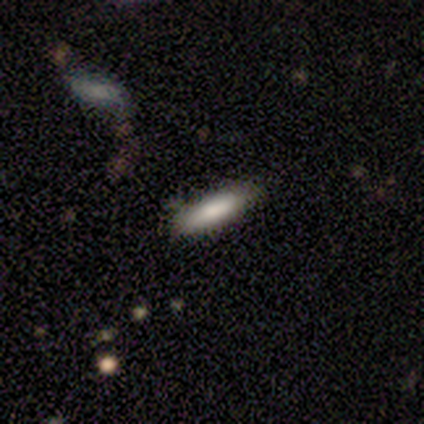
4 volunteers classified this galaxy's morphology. smooth-or-featured: smooth: 75% | featured or disk: 25% | star or artifact: 0%
  how-rounded: cigar-shaped: 67% | in between: 33% | round: 0%
  merging: none: 100% | minor disturbance: 0% | major disturbance: 0% | merger: 0%